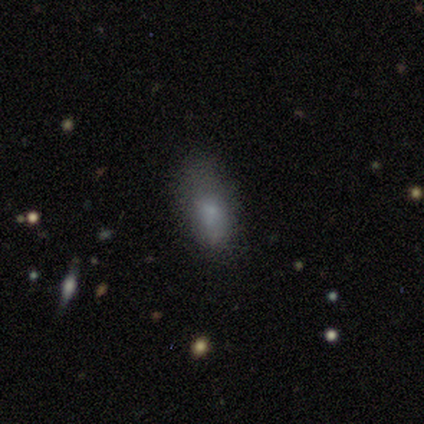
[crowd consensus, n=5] Smooth or featured: smooth — 100%
How rounded: in between — 100%
Merging: none — 100%